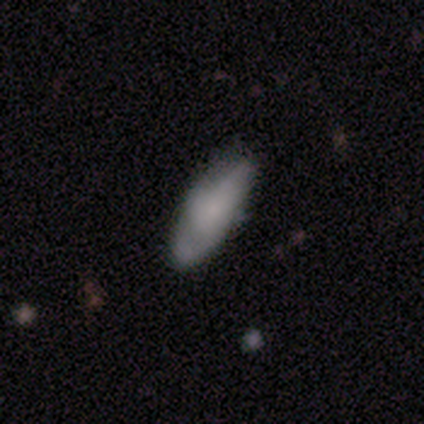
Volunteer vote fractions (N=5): Volunteers were most divided on "smooth or featured": smooth: 60%, featured or disk: 40%, star or artifact: 0%. More confident: how rounded — in between (67%); merging — minor disturbance (60%).